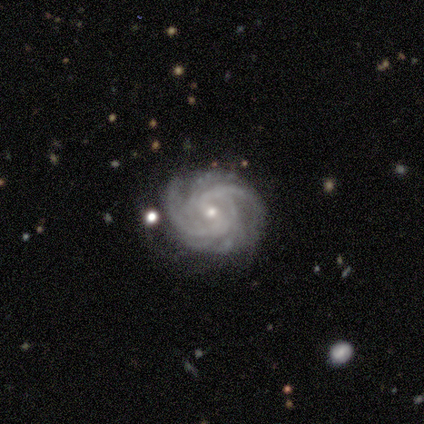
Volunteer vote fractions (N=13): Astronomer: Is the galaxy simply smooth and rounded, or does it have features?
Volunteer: featured or disk — 92%.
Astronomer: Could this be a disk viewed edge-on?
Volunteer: no — 100%.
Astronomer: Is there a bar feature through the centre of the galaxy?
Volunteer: weak — 58%.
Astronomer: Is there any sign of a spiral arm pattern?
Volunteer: yes — 100%.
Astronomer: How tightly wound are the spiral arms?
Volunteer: tight — 67%.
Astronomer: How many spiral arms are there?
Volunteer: can't tell — 33% (runner-up: 4, 25%).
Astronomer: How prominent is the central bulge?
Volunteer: small — 83%.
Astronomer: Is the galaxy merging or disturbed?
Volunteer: none — 67%.